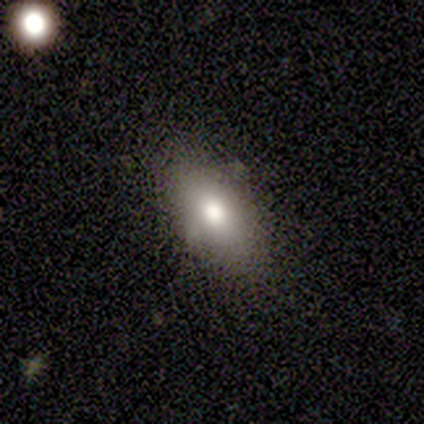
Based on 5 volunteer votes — Smooth or featured: smooth — 60% (featured or disk — 20%)
How rounded: in between — 100%
Merging: none — 100%